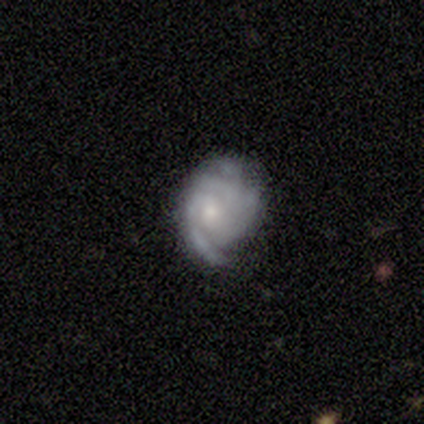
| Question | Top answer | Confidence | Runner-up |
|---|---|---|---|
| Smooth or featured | featured or disk | 76% | smooth (22%) |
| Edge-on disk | no | 100% | — |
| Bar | no | 89% | weak (11%) |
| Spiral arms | yes | 86% | no (14%) |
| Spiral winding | tight | 54% | medium (42%) |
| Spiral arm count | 3 | 29% | 2 (25%) |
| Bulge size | small | 68% | moderate (25%) |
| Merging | none | 53% | minor disturbance (31%) |